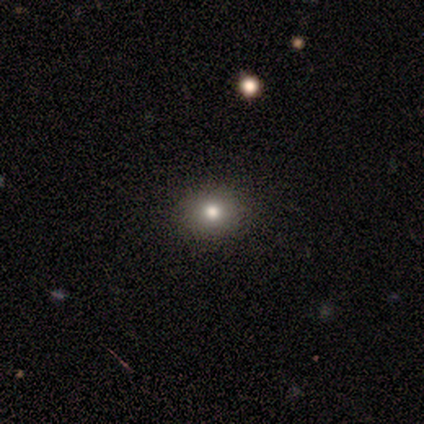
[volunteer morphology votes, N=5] Smooth or featured? 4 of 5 (80%) said smooth. How rounded? 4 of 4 (100%) said round. Merging? 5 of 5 (100%) said none.